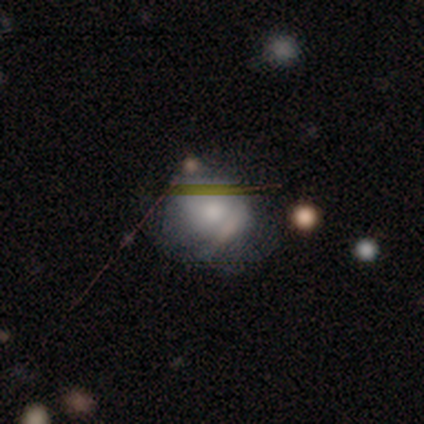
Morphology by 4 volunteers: Smooth or featured?
  - smooth: 50% *
  - featured or disk: 25%
  - star or artifact: 25%
How rounded?
  - round: 50% * (tied)
  - in between: 50% * (tied)
  - cigar-shaped: 0%
Merging?
  - minor disturbance: 67% *
  - none: 33%
  - major disturbance: 0%
  - merger: 0%